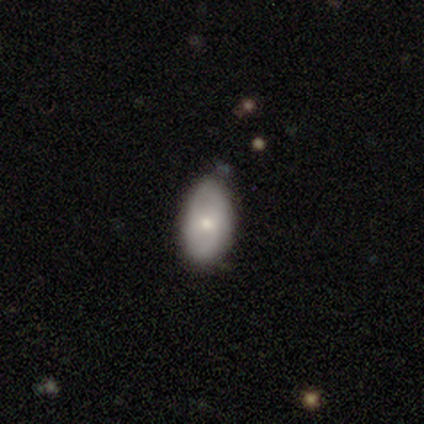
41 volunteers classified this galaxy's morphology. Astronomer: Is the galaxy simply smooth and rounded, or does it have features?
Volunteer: featured or disk — 51% (runner-up: smooth, 46%).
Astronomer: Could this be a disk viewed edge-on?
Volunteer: no — 100%.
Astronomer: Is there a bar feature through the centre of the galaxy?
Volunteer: no — 76%.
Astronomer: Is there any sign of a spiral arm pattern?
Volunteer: no — 67%.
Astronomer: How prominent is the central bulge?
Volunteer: moderate — 62% (runner-up: small, 38%).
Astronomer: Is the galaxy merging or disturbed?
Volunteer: none — 72%.